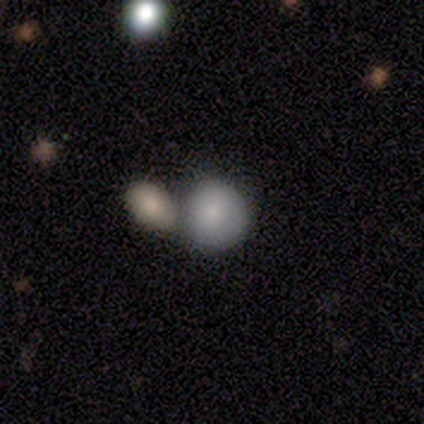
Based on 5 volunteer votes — Volunteers were most divided on "merging": merger: 80%, none: 20%, minor disturbance: 0%, major disturbance: 0%. More confident: smooth or featured — smooth (100%); how rounded — round (100%).